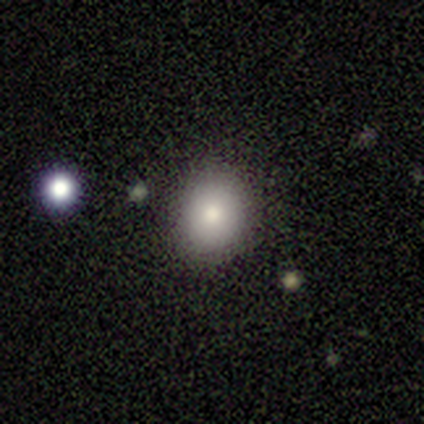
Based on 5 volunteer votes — smooth_or_featured: smooth (p=0.80) [alt: featured or disk p=0.20]
how_rounded: round (p=0.75) [alt: in between p=0.25]
merging: none (p=1.00)